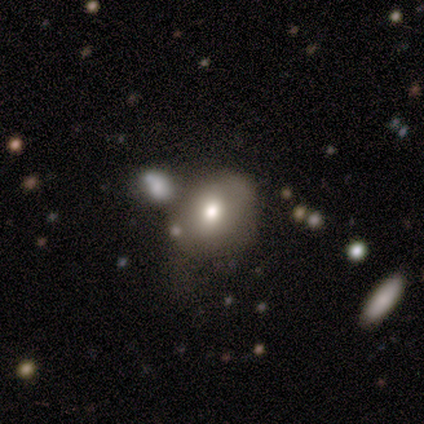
Smooth or featured? 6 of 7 (86%) said smooth. How rounded? 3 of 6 (50%, tied with in between) said round. Merging? 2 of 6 (33%, tied with minor disturbance) said none.